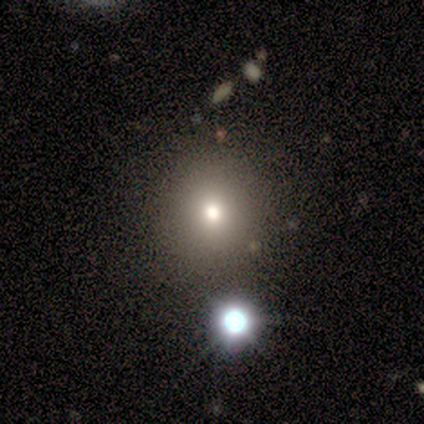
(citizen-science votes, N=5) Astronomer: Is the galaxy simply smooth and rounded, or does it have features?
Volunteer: smooth — 40%, tied with featured or disk at 40%.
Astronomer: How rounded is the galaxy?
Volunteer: round — 100%.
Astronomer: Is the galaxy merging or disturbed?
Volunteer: none — 75%.